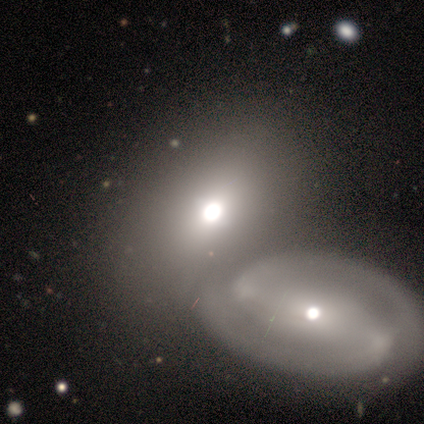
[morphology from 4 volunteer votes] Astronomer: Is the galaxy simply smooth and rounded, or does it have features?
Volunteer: smooth — 50%, tied with featured or disk at 50%.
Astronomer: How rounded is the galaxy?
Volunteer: in between — 100%.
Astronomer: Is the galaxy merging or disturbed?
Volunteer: merger — 50%.